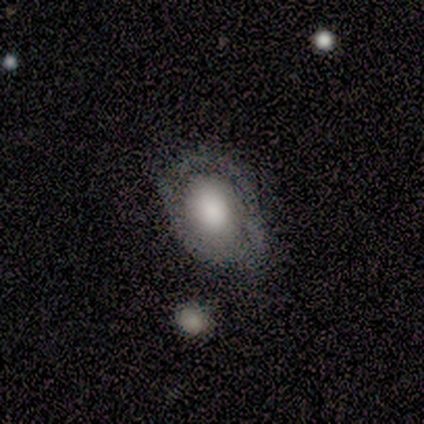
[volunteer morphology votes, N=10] Smooth or featured? featured or disk (60%)
Edge-on disk? no (100%)
Bar? no (83%)
Spiral arms? yes (67%)
Spiral winding? tight (75%)
Spiral arm count? 2 (50%)
Bulge size? large (67%)
Merging? none (56%)